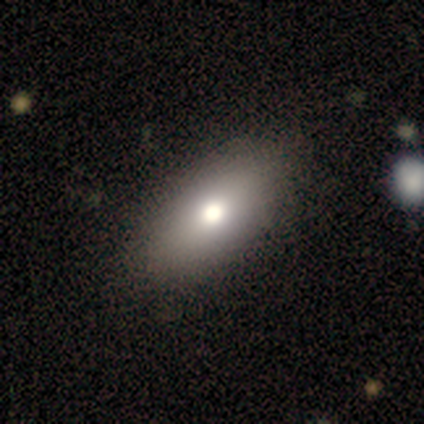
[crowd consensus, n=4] smooth-or-featured: smooth: 75% | star or artifact: 25% | featured or disk: 0%
  how-rounded: in between: 100% | round: 0% | cigar-shaped: 0%
  merging: none: 100% | minor disturbance: 0% | major disturbance: 0% | merger: 0%